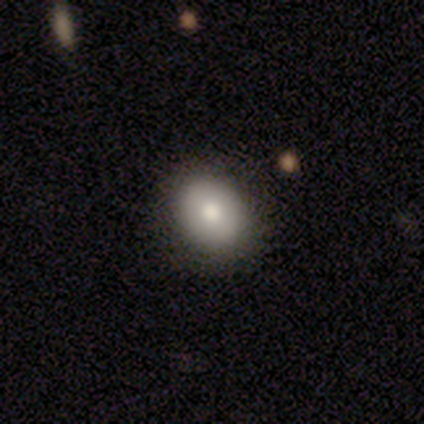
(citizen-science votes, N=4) This appears to be a smooth galaxy with no disk features (75%) that is in between round and cigar-shaped (67%). Merging: none (75%).